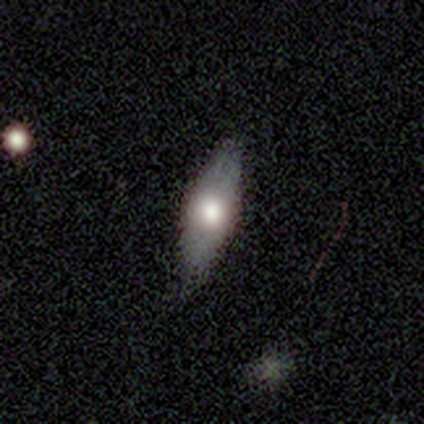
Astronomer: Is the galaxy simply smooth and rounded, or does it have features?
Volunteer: smooth — 80%.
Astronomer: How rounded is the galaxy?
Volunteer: in between — 75%.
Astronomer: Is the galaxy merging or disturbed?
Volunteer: none — 100%.